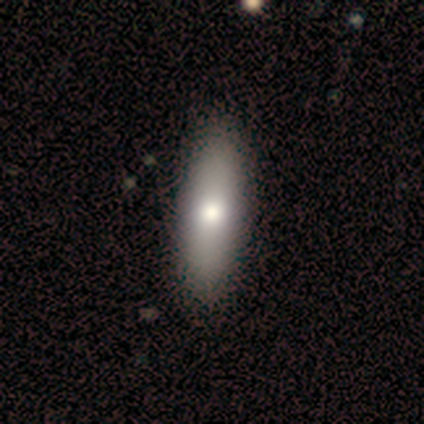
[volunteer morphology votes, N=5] A smooth galaxy with no disk features (80%) that is in between round and cigar-shaped (100%). Merging: none (100%).